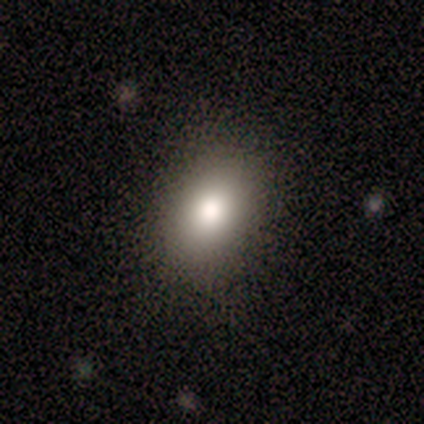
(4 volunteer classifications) A smooth galaxy with no disk features (75%) that is in between round and cigar-shaped (100%). Merging: none (67%).